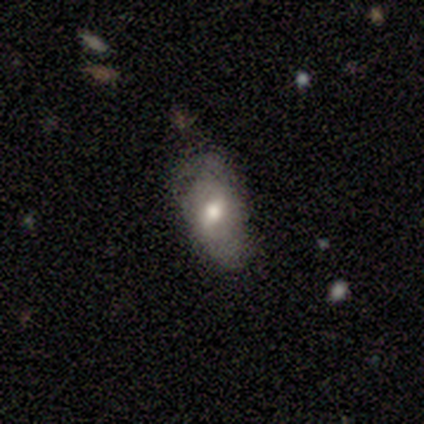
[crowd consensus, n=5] This is clearly a featured or disk galaxy (80%). It is clearly not viewed edge-on (100%). Bar: clearly weak (100%). Spiral arm pattern: likely yes (75%). Spiral arm count: clearly 2 (100%). Spiral winding: clearly medium (100%). Central bulge: likely moderate (75%). Merging: likely none (60%).